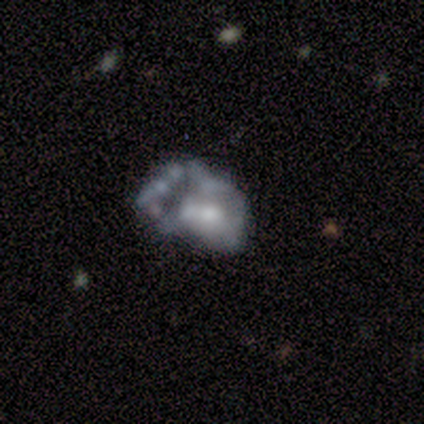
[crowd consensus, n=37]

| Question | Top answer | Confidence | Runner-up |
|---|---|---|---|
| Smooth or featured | featured or disk | 57% | smooth (32%) |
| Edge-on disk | no | 100% | — |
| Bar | no | 76% | weak (14%) |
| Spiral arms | no | 81% | yes (19%) |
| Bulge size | moderate | 57% | small (33%) |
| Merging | major disturbance | 45% | none (21%) |